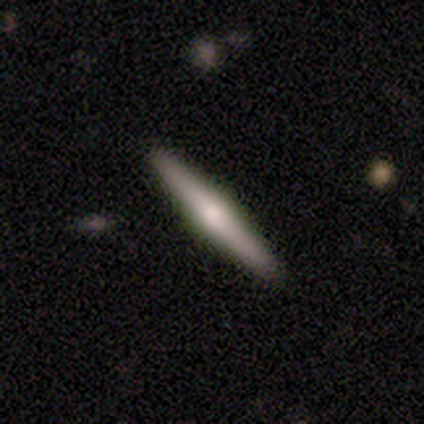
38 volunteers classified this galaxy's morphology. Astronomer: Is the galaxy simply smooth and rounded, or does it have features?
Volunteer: featured or disk — 63%.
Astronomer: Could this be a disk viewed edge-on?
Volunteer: yes — 96%.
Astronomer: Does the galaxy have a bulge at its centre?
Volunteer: rounded — 100%.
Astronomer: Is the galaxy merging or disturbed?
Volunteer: none — 94%.